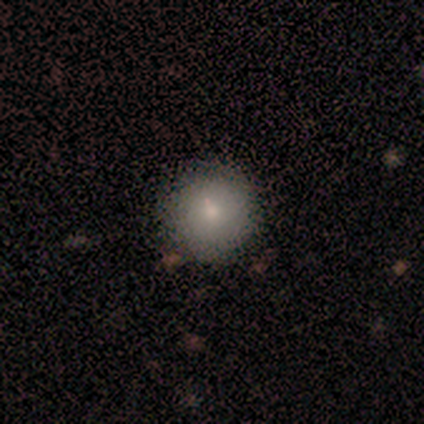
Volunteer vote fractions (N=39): Smooth or featured? smooth (74%)
How rounded? round (100%)
Merging? none (63%)